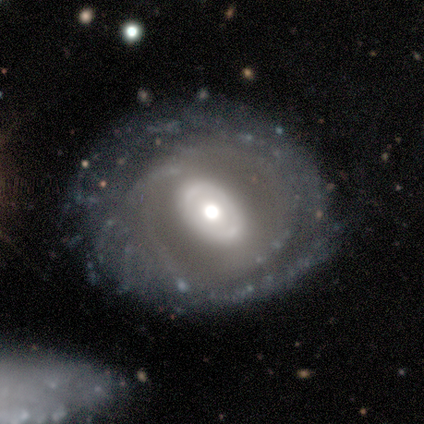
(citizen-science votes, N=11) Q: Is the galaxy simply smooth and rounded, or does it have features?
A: featured or disk — 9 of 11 (82%).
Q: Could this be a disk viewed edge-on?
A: no — 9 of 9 (100%).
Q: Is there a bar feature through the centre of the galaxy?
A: no — 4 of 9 (44%).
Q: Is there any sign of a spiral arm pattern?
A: yes — 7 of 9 (78%).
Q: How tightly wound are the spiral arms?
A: tight — 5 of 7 (71%).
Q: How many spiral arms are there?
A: can't tell — 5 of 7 (71%).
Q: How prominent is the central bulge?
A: large — 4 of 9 (44%, tied with moderate).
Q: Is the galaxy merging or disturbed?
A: none — 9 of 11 (82%).